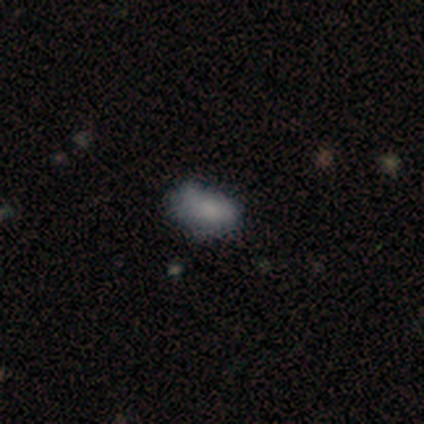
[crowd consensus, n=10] Smooth or featured? 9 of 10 (90%) said smooth. How rounded? 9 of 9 (100%) said in between. Merging? 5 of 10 (50%, tied with minor disturbance) said none.